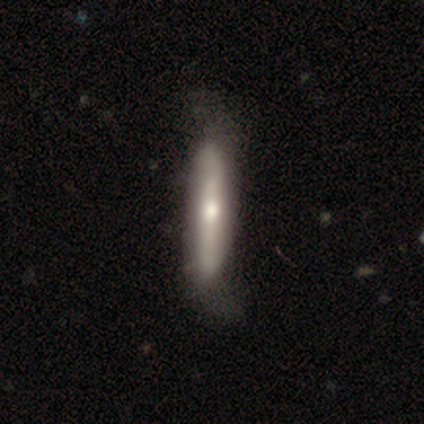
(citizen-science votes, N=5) This appears to be a smooth galaxy with no disk features (40%, tied with featured or disk) that is cigar-shaped (100%). Merging: none (50%, tied with minor disturbance).